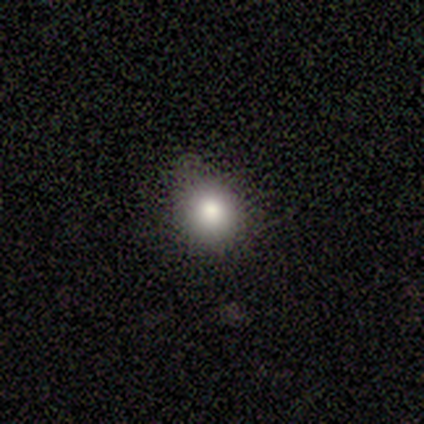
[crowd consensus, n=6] smooth-or-featured: smooth: 83% | featured or disk: 17% | star or artifact: 0%
  how-rounded: round: 100% | in between: 0% | cigar-shaped: 0%
  merging: none: 67% | minor disturbance: 33% | major disturbance: 0% | merger: 0%